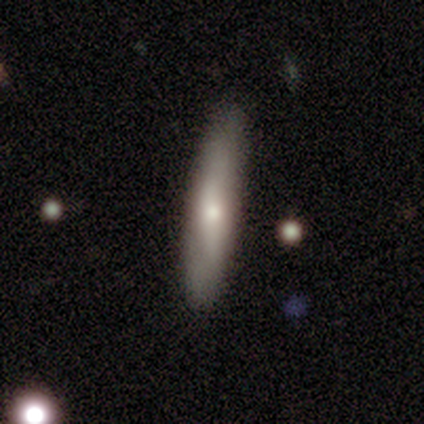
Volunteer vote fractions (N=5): Overall: smooth (80%). How rounded: cigar-shaped (50%; round 25%). Merging: none (80%).